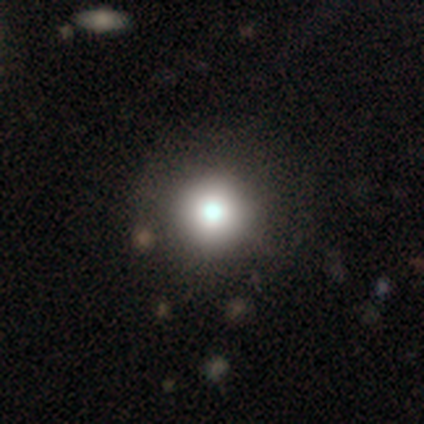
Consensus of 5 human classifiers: Volunteers were most divided on "smooth or featured" (2-way tie): smooth: 40%, star or artifact: 40%, featured or disk: 20%. More confident: how rounded — round (100%); merging — none (100%).